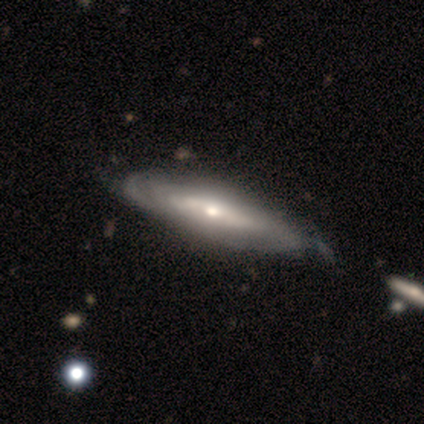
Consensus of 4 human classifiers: smooth_or_featured: featured or disk (p=1.00)
disk_edge_on: no (p=1.00)
bar: no (p=0.75) [alt: weak p=0.25]
has_spiral_arms: yes (p=1.00)
spiral_winding: tight (p=0.50) [tied with: medium p=0.50]
spiral_arm_count: can't tell (p=0.75) [alt: 2 p=0.25]
bulge_size: moderate (p=0.50) [alt: large p=0.25]
merging: minor disturbance (p=0.50) [tied with: merger p=0.50]